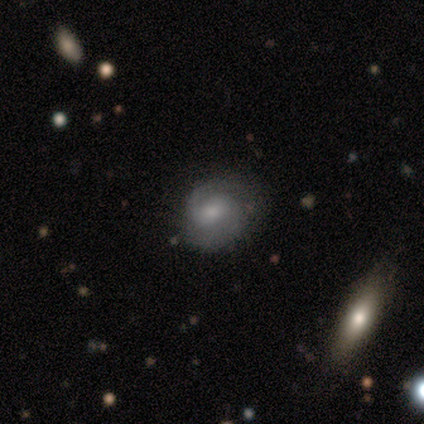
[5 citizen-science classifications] This is likely a featured or disk galaxy (60%). It is clearly not viewed edge-on (100%). Bar: likely no (67%). Spiral arm pattern: clearly yes (100%). Spiral arm count: likely 2 (67%). Spiral winding: likely medium (67%). Central bulge: clearly small (100%). Merging: clearly none (100%).